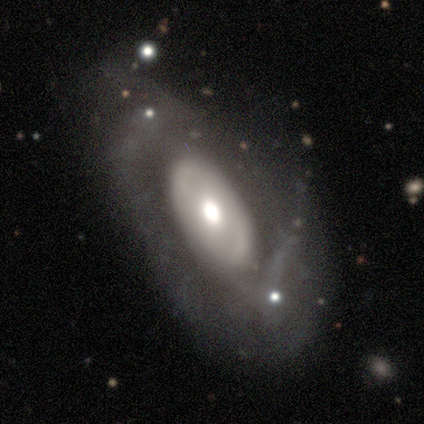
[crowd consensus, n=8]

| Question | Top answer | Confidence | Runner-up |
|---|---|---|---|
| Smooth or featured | featured or disk | 88% | smooth (12%) |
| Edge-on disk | no | 71% | yes (29%) |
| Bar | no | 60% | strong (20%) |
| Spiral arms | yes | 60% | no (40%) |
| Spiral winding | loose | 67% | tight (33%) |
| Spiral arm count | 2 | 67% | can't tell (33%) |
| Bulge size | moderate | 100% | — |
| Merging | none | 75% | minor disturbance (25%) |